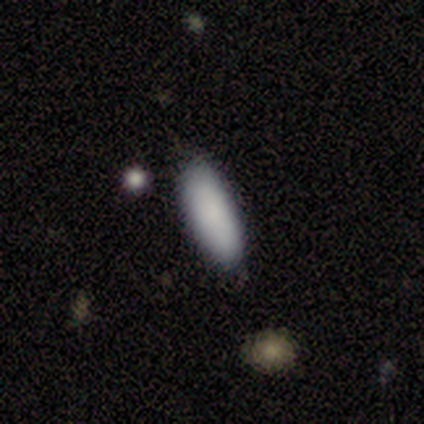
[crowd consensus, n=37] Volunteers were most divided on "how rounded": in between: 71%, cigar-shaped: 29%, round: 0%. More confident: smooth or featured — smooth (95%); merging — none (73%).